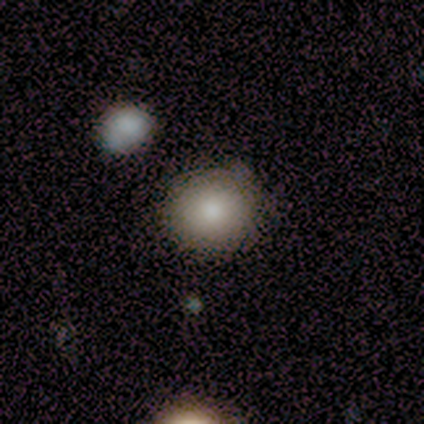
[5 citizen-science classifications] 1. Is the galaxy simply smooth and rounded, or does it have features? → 100% smooth, 0% featured or disk, 0% star or artifact.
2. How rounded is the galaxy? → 100% round, 0% in between, 0% cigar-shaped.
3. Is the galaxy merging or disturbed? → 100% none, 0% minor disturbance, 0% major disturbance, 0% merger.